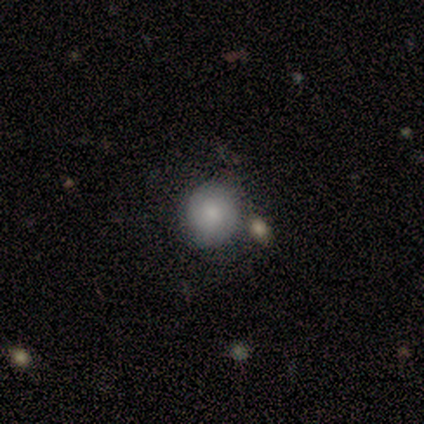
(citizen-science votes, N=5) smooth 80%, featured or disk 20%, star or artifact 0%. Down the decision tree: how rounded — round (100%); merging — none (60%).